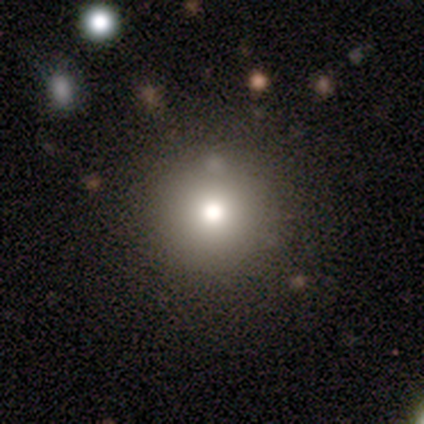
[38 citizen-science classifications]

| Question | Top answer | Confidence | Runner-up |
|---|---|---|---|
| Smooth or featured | smooth | 61% | star or artifact (21%) |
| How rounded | round | 96% | in between (4%) |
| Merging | none | 90% | minor disturbance (10%) |